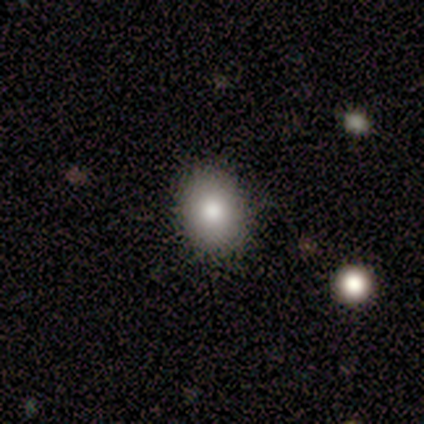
smooth-or-featured: smooth: 100% | featured or disk: 0% | star or artifact: 0%
  how-rounded: round: 100% | in between: 0% | cigar-shaped: 0%
  merging: none: 100% | minor disturbance: 0% | major disturbance: 0% | merger: 0%